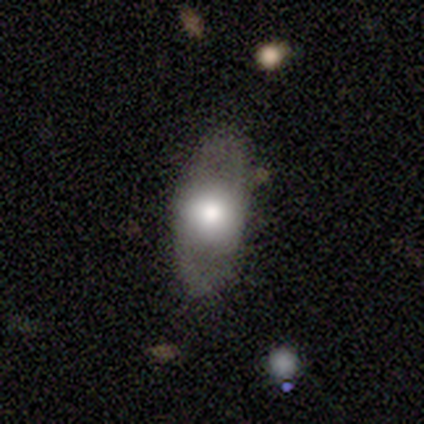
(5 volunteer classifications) Q: Smooth or featured?
A: smooth (60%); runner-up: featured or disk (40%)
Q: How rounded?
A: in between (100%)
Q: Merging?
A: none (80%); runner-up: merger (20%)